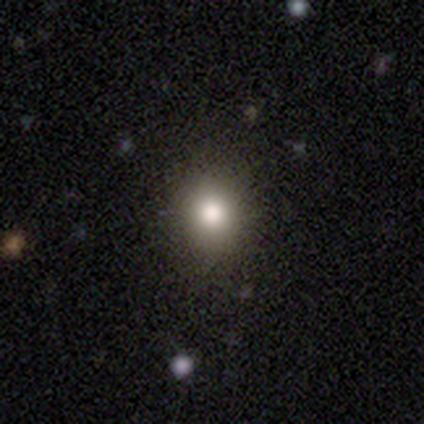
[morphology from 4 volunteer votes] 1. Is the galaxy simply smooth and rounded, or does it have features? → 100% smooth, 0% featured or disk, 0% star or artifact.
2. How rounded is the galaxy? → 100% round, 0% in between, 0% cigar-shaped.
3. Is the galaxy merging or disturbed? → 100% none, 0% minor disturbance, 0% major disturbance, 0% merger.